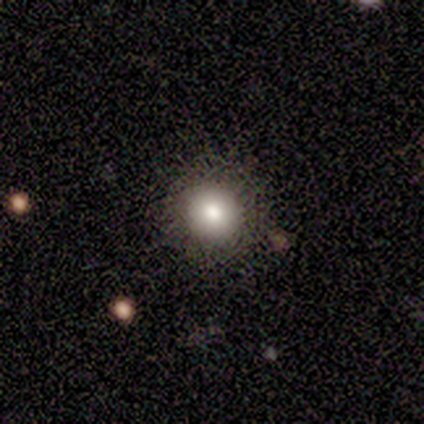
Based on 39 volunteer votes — This is likely a smooth galaxy (72%). How rounded: clearly round (96%). Merging: likely none (79%).